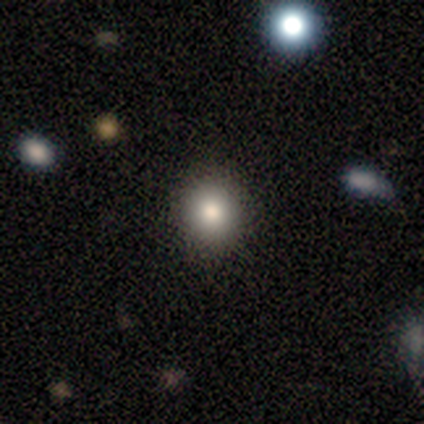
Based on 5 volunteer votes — smooth 80%, star or artifact 20%, featured or disk 0%. Down the decision tree: how rounded — round (100%); merging — none (75%).